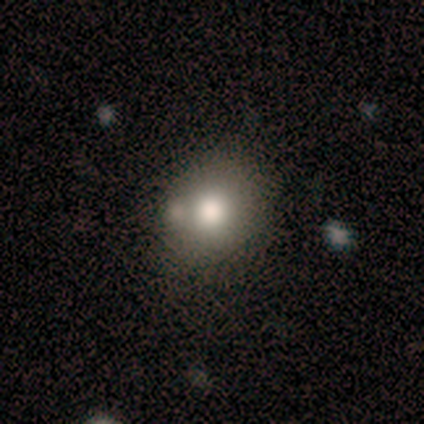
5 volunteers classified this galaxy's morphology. A smooth galaxy with no disk features (80%) that is round (100%). Merging: none (50%).